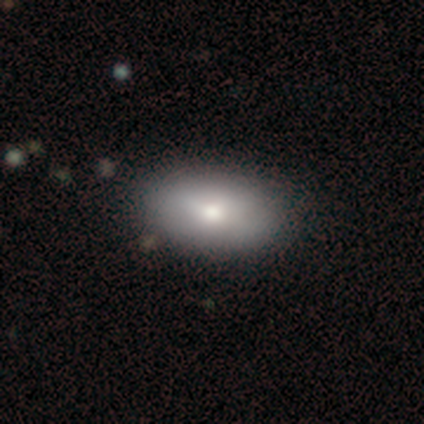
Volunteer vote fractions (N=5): A smooth galaxy with no disk features (100%) that is in between round and cigar-shaped (100%). Merging: none (100%).